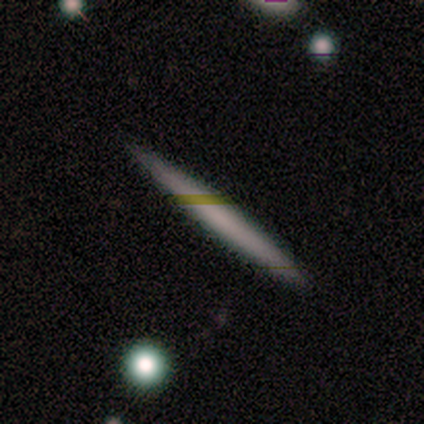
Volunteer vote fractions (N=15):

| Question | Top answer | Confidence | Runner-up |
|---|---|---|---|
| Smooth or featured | smooth | 67% | featured or disk (33%) |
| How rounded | cigar-shaped | 100% | — |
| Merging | none | 87% | minor disturbance (7%) |